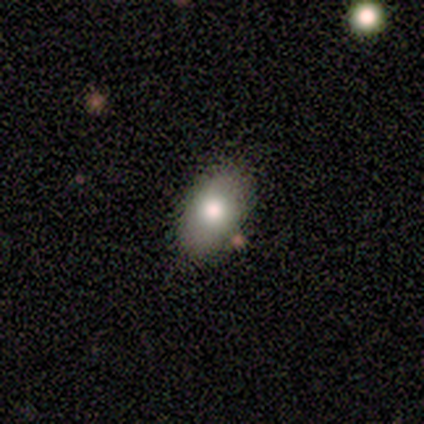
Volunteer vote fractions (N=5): Smooth or featured?
  - smooth: 60% *
  - featured or disk: 20%
  - star or artifact: 20%
How rounded?
  - in between: 100% *
  - round: 0%
  - cigar-shaped: 0%
Merging?
  - none: 75% *
  - minor disturbance: 25%
  - major disturbance: 0%
  - merger: 0%